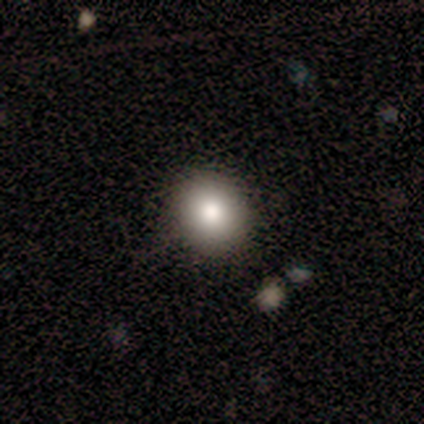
Overall: smooth (80%). How rounded: round (100%). Merging: none (100%).